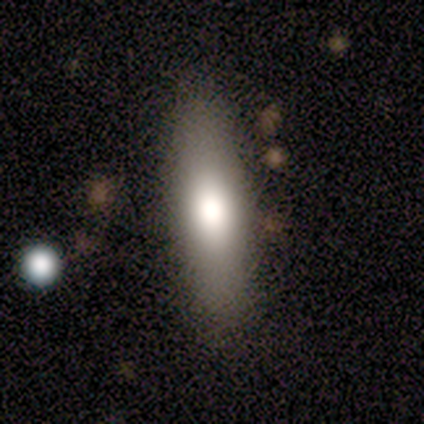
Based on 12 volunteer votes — A smooth galaxy with no disk features (83%) that is cigar-shaped (60%).

Vote fractions:
- Smooth or featured? smooth: 83% / featured or disk: 8% / star or artifact: 8%
- How rounded? cigar-shaped: 60% / in between: 40% / round: 0%
- Merging? none: 82% / minor disturbance: 9% / major disturbance: 9% / merger: 0%